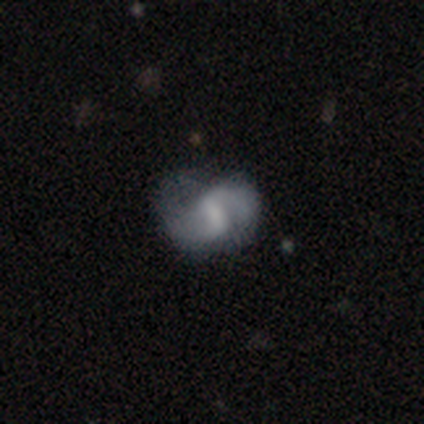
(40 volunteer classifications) This is likely a featured or disk galaxy (72%). It is clearly not viewed edge-on (97%). Bar: possibly weak (57%). Spiral arm pattern: clearly yes (82%). Spiral arm count: clearly 2 (87%). Spiral winding: possibly loose (48%). Central bulge: marginally none (36%). Merging: possibly none (53%).